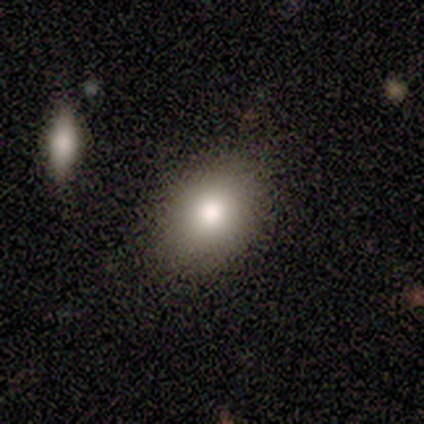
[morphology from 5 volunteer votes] Q: Smooth or featured?
A: star or artifact (60%); runner-up: smooth (40%)